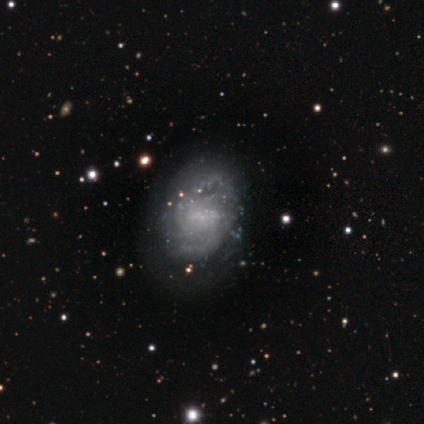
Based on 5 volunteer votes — smooth-or-featured: featured or disk: 60% | smooth: 40% | star or artifact: 0%
  disk-edge-on: no: 100% | yes: 0%
    bar: no: 67% | weak: 33% | strong: 0%
    has-spiral-arms: yes: 100% | no: 0%
      spiral-winding: tight: 67% | medium: 33% | loose: 0%
      spiral-arm-count: can't tell: 100% | 1: 0% | 2: 0% | 3: 0% | 4: 0% | more than 4: 0%
    bulge-size: none: 67% | small: 33% | dominant: 0% | large: 0% | moderate: 0%
  merging: none: 80% | minor disturbance: 20% | major disturbance: 0% | merger: 0%